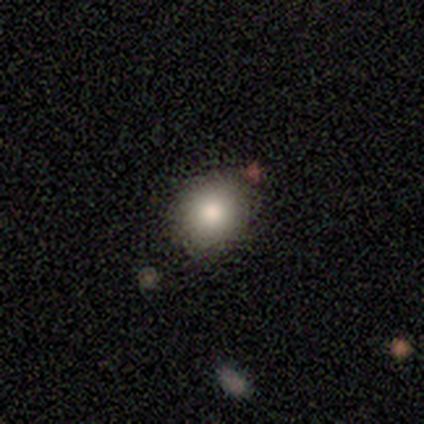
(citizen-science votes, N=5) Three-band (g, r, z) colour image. It shows a smooth galaxy with no disk features (80%) that is round (100%). Merging: none (100%).